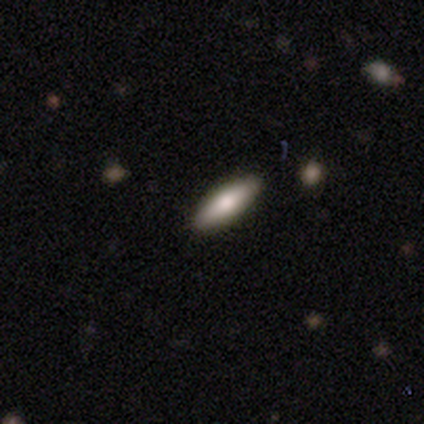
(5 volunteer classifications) This appears to be a featured or disk galaxy (60%) with no bar (100%), no spiral arms (100%) and a moderate central bulge (100%). Merging: none (100%).